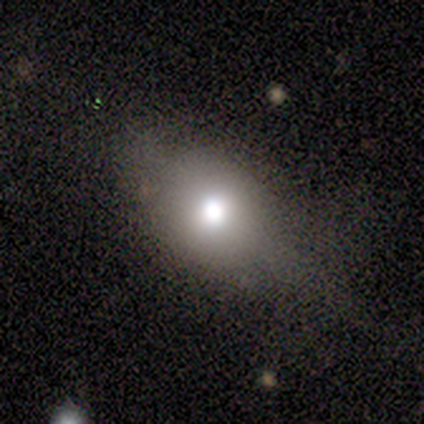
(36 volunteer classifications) Smooth or featured: smooth — 69% (featured or disk — 17%)
How rounded: in between — 68% (round — 32%)
Merging: none — 71% (major disturbance — 16%)